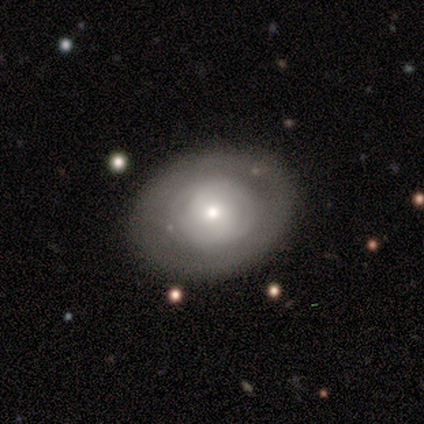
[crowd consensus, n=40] Volunteers were most divided on "smooth or featured" (2-way tie): smooth: 45%, featured or disk: 45%, star or artifact: 10%. More confident: merging — none (89%); how rounded — round (61%).